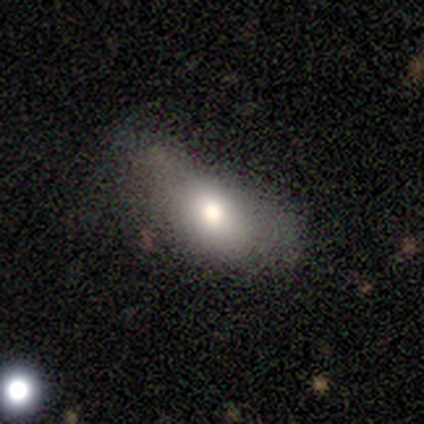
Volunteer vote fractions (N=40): This appears to be a smooth galaxy with no disk features (68%) that is in between round and cigar-shaped (89%). Merging: major disturbance (35%).